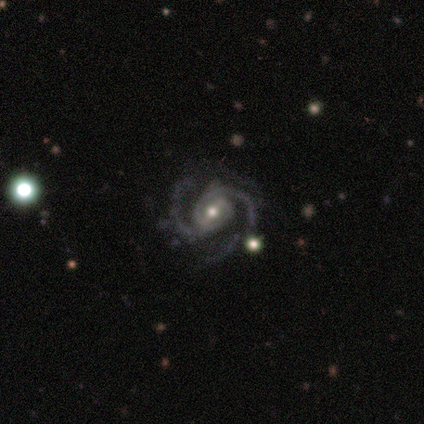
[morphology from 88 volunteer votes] A featured or disk galaxy (98%) with a weak bar (46%), 2 (74%) medium (68%) spiral arms (99%) and a moderate central bulge (62%). Merging: none (63%).